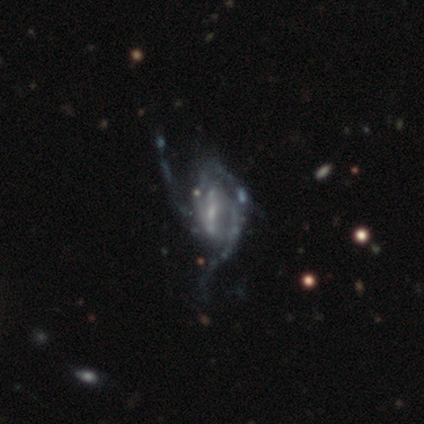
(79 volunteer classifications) This appears to be a featured or disk galaxy (94%) with a weak bar (51%), 3 (37%) loose (64%) spiral arms (81%) and a small central bulge (45%). Merging: major disturbance (24%).